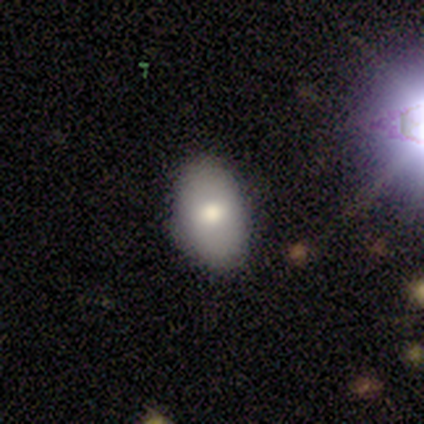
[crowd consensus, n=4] This appears to be a smooth galaxy with no disk features (50%, tied with featured or disk) that is round (50%, tied with in between). Merging: none (100%).